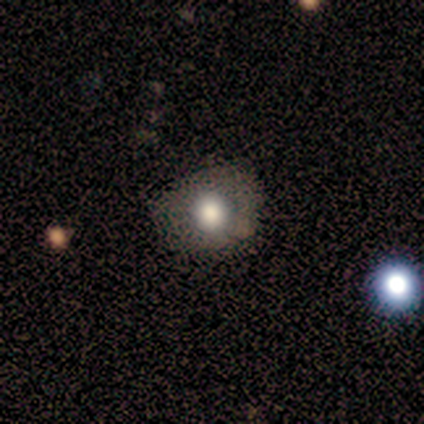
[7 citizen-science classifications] A smooth galaxy with no disk features (71%) that is round (80%). Merging: none (67%).